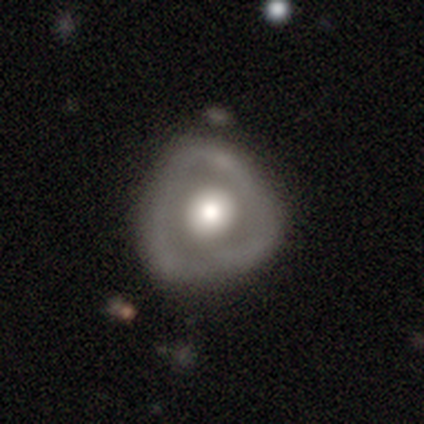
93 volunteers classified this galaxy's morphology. A featured or disk galaxy (59%) with no bar (96%), no spiral arms (87%) and a large central bulge (53%). Merging: none (51%).